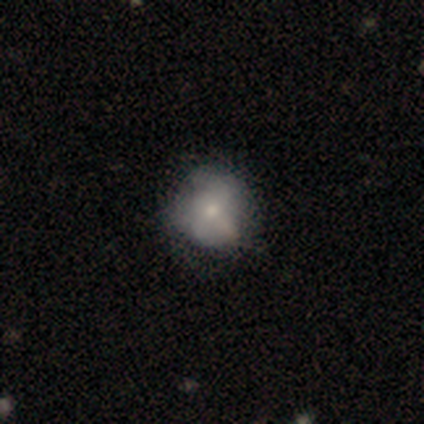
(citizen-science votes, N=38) Smooth or featured? smooth (58%)
How rounded? round (82%)
Merging? none (61%)